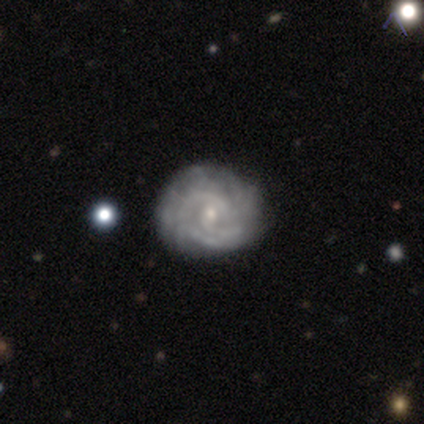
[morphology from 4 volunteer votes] Overall: featured or disk (75%). Edge-on disk: no (100%). Bar: weak (67%; no 33%). Spiral arms: yes (100%). Spiral arm count: can't tell (67%; 2 33%). Spiral winding: tight (67%; medium 33%). Bulge size: small (100%). Merging: none (50%, tied with merger).